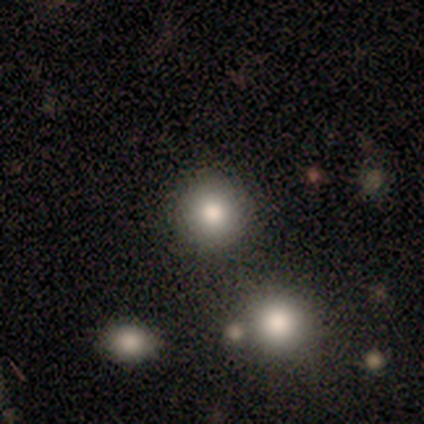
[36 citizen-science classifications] Q: Smooth or featured?
A: smooth (86%); runner-up: featured or disk (8%)
Q: How rounded?
A: round (94%); runner-up: in between (6%)
Q: Merging?
A: none (85%); runner-up: minor disturbance (6%)